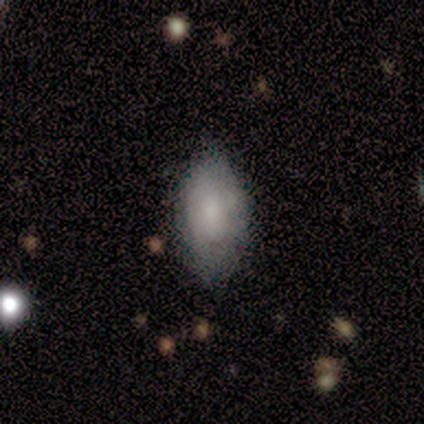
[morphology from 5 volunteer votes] type=smooth (80%); roundness=in between (100%); merging=none (40%, tied with minor disturbance).